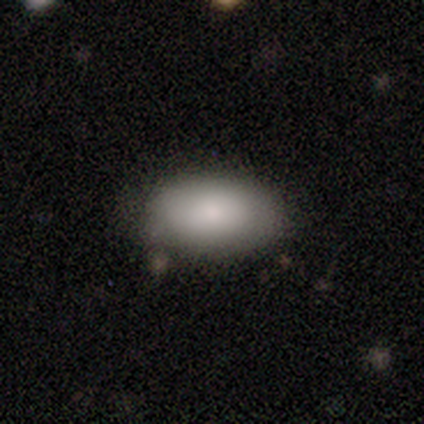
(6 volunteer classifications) A smooth galaxy with no disk features (83%) that is in between round and cigar-shaped (100%).

Vote fractions:
- Smooth or featured? smooth: 83% / featured or disk: 17% / star or artifact: 0%
- How rounded? in between: 100% / round: 0% / cigar-shaped: 0%
- Merging? none: 100% / minor disturbance: 0% / major disturbance: 0% / merger: 0%